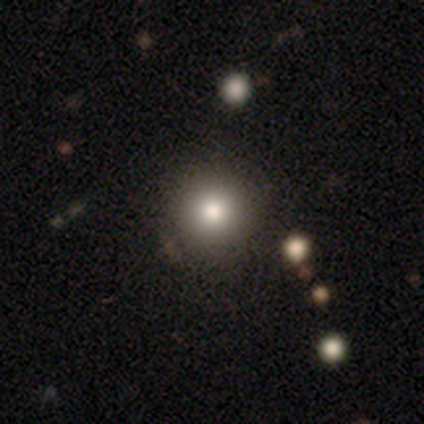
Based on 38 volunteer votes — Smooth or featured?
  - smooth: 71% *
  - featured or disk: 16%
  - star or artifact: 13%
How rounded?
  - round: 100% *
  - in between: 0%
  - cigar-shaped: 0%
Merging?
  - none: 58% *
  - minor disturbance: 3%
  - merger: 3%
  - major disturbance: 0%